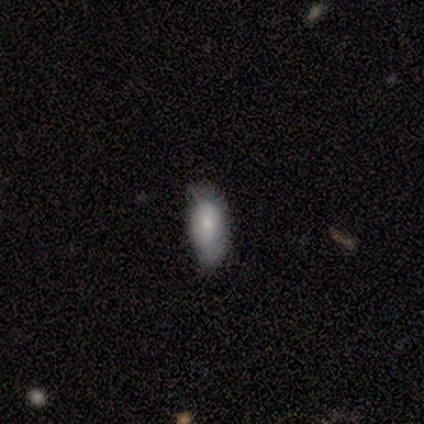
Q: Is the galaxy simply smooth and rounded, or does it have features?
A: smooth — 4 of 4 (100%).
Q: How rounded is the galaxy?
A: in between — 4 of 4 (100%).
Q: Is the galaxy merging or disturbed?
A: none — 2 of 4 (50%, tied with minor disturbance).